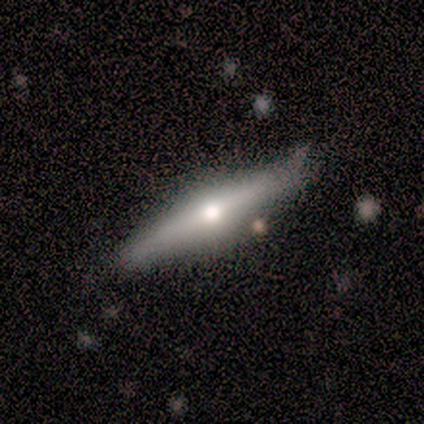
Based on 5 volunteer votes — Smooth or featured? featured or disk (80%)
Edge-on disk? yes (100%)
Edge-on bulge? rounded (100%)
Merging? minor disturbance (50%)